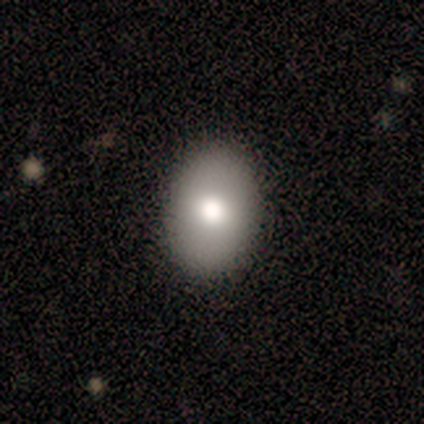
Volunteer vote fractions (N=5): Overall: smooth (100%). How rounded: in between (100%). Merging: none (100%).